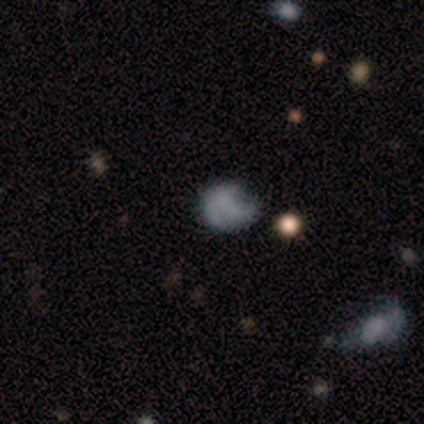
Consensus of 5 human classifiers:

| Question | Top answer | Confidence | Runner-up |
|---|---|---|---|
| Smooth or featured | smooth | 60% | star or artifact (40%) |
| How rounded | round | 100% | — |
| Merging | none | 33% | tied: minor disturbance (33%), major disturbance (33%) |